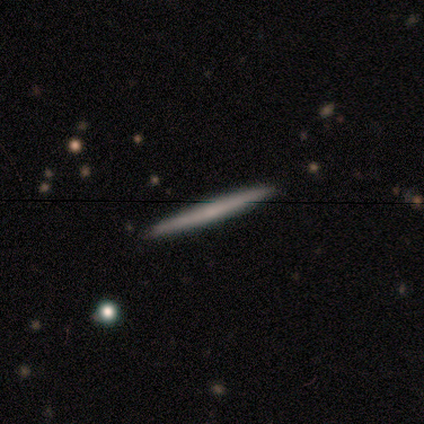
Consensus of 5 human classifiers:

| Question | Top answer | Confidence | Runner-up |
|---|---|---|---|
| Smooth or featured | featured or disk | 80% | smooth (20%) |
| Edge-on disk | yes | 75% | no (25%) |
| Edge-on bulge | none | 67% | boxy (33%) |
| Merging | none | 80% | minor disturbance (20%) |